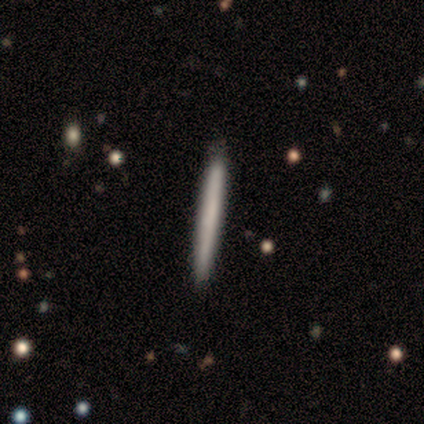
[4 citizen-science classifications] featured or disk 75%, smooth 25%, star or artifact 0%. Down the decision tree: edge-on disk — yes (100%); edge-on bulge — none (100%); merging — none (100%).